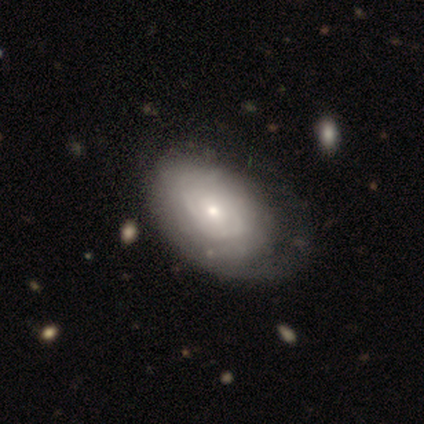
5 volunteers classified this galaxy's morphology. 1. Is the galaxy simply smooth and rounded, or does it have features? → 60% featured or disk, 40% smooth, 0% star or artifact.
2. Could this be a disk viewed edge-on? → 100% no, 0% yes.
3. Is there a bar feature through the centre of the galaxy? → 100% no, 0% strong, 0% weak.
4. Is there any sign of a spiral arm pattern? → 100% yes, 0% no.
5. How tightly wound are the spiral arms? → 100% tight, 0% medium, 0% loose.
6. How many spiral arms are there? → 100% can't tell, 0% 1, 0% 2, 0% 3, 0% 4, 0% more than 4.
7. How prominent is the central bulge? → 100% small, 0% dominant, 0% large, 0% moderate, 0% none.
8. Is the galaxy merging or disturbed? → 60% none, 20% minor disturbance, 20% major disturbance, 0% merger.